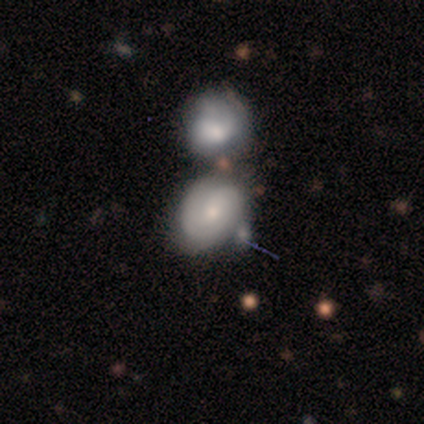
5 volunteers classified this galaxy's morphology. smooth-or-featured: featured or disk: 80% | smooth: 20% | star or artifact: 0%
  disk-edge-on: no: 100% | yes: 0%
    bar: no: 75% | weak: 25% | strong: 0%
    has-spiral-arms: yes: 100% | no: 0%
      spiral-winding: tight: 75% | medium: 25% | loose: 0%
      spiral-arm-count: 2: 50% | 3: 25% | can't tell: 25% | 1: 0% | 4: 0% | more than 4: 0%
    bulge-size: moderate: 50% (tied) | small: 50% (tied) | dominant: 0% | large: 0% | none: 0%
  merging: none: 40% (tied) | merger: 40% (tied) | minor disturbance: 20% | major disturbance: 0%